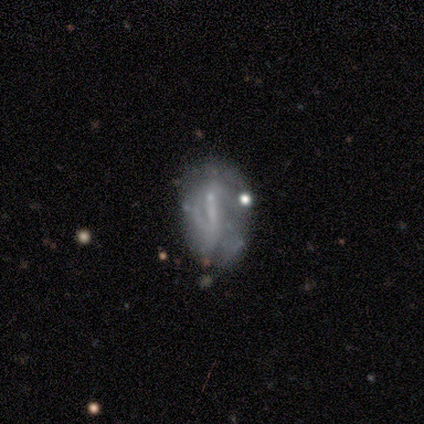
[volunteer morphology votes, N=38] type=featured or disk (66%); edge-on=no (88%); bar=weak (45%); spiral arms=yes (59%); winding=tight (46%); arm count=2 (38%, tied with can't tell); bulge=none (50%); merging=minor disturbance (39%).